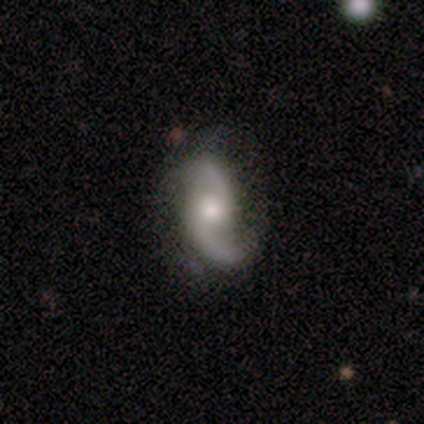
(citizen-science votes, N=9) A featured or disk galaxy (89%) with no bar (88%), 2 (100%) loose (50%) spiral arms (100%) and a moderate central bulge (88%).

Vote fractions:
- Smooth or featured? featured or disk: 89% / smooth: 11% / star or artifact: 0%
- Edge-on disk? no: 100% / yes: 0%
- Bar? no: 88% / weak: 12% / strong: 0%
- Spiral arms? yes: 100% / no: 0%
- Spiral winding? loose: 50% / tight: 25% / medium: 25%
- Spiral arm count? 2: 100% / 1: 0% / 3: 0% / 4: 0% / more than 4: 0% / can't tell: 0%
- Bulge size? moderate: 88% / small: 12% / dominant: 0% / large: 0% / none: 0%
- Merging? none: 67% / minor disturbance: 22% / major disturbance: 11% / merger: 0%